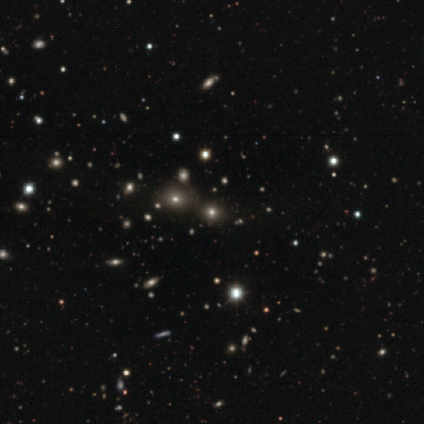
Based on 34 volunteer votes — This is possibly a star or artifact rather than a galaxy (53%).